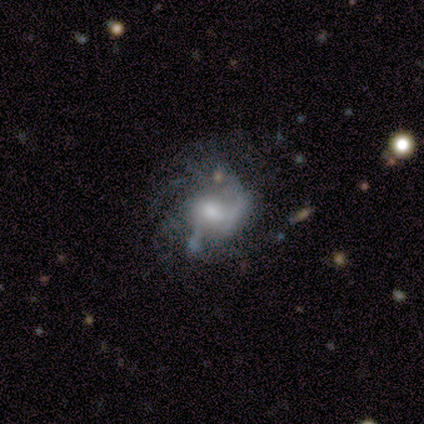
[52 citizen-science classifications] Smooth or featured? featured or disk (83%)
Edge-on disk? no (93%)
Bar? no (60%)
Spiral arms? yes (75%)
Spiral winding? medium (40%)
Spiral arm count? 2 (30%, tied with can't tell)
Bulge size? moderate (48%)
Merging? none (41%)